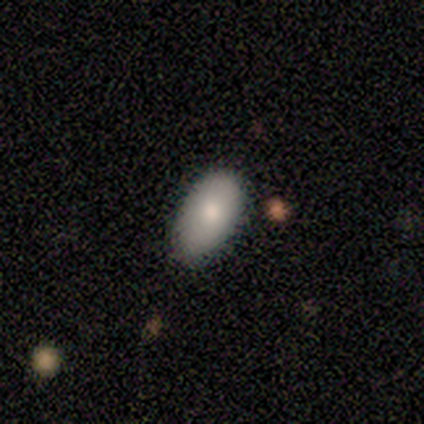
Smooth or featured: smooth — 100%
How rounded: in between — 100%
Merging: none — 80% (minor disturbance — 20%)